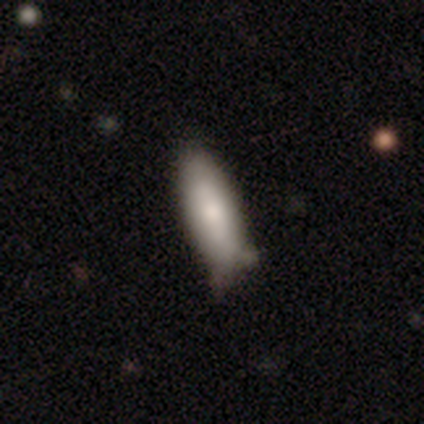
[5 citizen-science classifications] This is clearly a smooth galaxy (100%). How rounded: likely in between (60%). Merging: clearly none (80%).